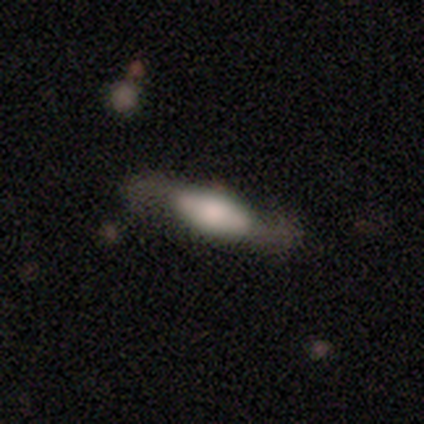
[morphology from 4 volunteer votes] This appears to be a smooth galaxy with no disk features (50%, tied with featured or disk) that is in between round and cigar-shaped (100%). Merging: none (50%, tied with major disturbance).